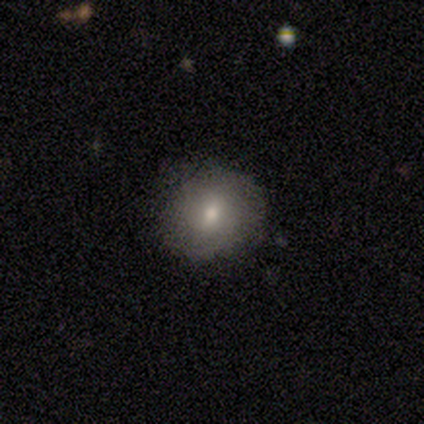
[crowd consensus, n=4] Smooth or featured: featured or disk — 75% (smooth — 25%)
Edge-on disk: no — 100%
Bar: weak — 100%
Spiral arms: no — 67% (yes — 33%)
Bulge size: small — 100%
Merging: none — 100%